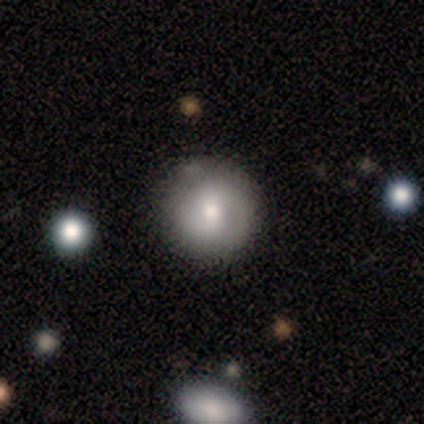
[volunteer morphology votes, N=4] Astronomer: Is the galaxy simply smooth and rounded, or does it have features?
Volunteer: featured or disk — 75%.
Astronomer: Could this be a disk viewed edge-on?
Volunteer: no — 100%.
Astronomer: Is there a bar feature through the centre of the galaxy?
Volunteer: weak — 67%.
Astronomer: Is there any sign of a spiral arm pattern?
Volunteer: no — 67%.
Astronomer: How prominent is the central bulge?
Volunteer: moderate — 100%.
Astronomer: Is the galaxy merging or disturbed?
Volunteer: none — 75%.